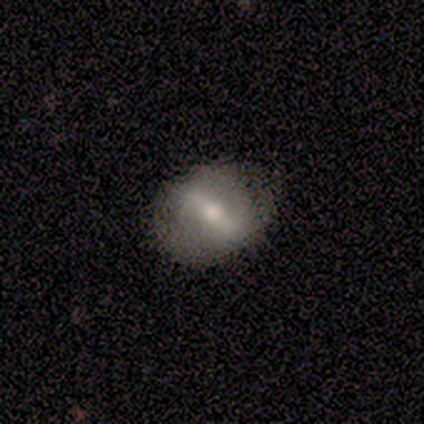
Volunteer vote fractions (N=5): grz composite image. It shows a featured or disk galaxy (60%) with a strong bar (67%), no spiral arms (67%) and a moderate central bulge (67%). Merging: none (60%).